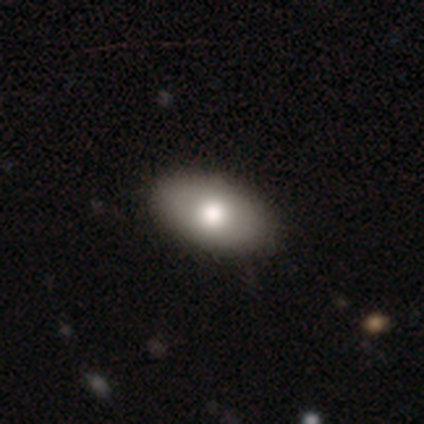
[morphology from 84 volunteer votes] smooth-or-featured: smooth: 73% | featured or disk: 19% | star or artifact: 8%
  how-rounded: in between: 97% | round: 3% | cigar-shaped: 0%
  merging: none: 86% | minor disturbance: 12% | major disturbance: 1% | merger: 1%